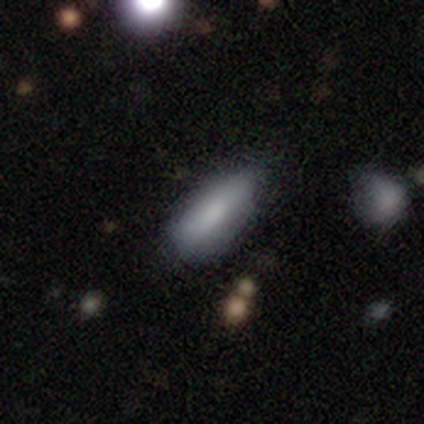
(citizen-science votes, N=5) This is clearly a smooth galaxy (80%). How rounded: clearly in between (100%). Merging: possibly none (50%, tied with minor disturbance).